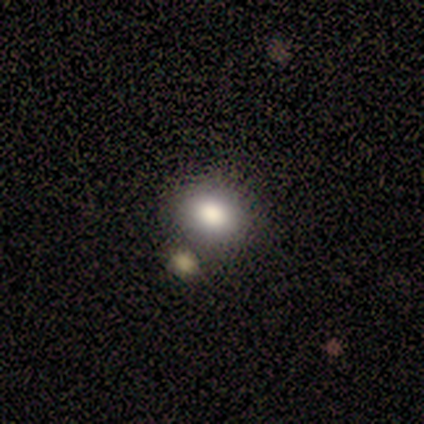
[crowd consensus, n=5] A smooth galaxy with no disk features (100%) that is round (60%).

Vote fractions:
- Smooth or featured? smooth: 100% / featured or disk: 0% / star or artifact: 0%
- How rounded? round: 60% / in between: 40% / cigar-shaped: 0%
- Merging? none: 80% / minor disturbance: 20% / major disturbance: 0% / merger: 0%